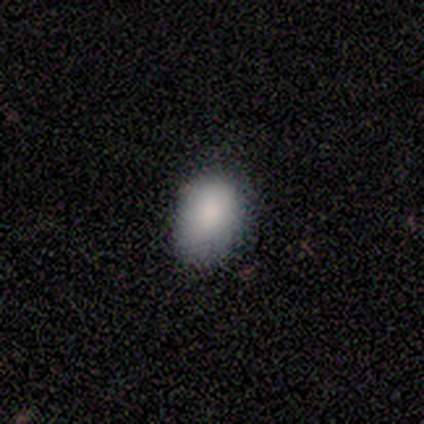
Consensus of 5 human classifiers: smooth_or_featured: smooth (p=0.80) [alt: star or artifact p=0.20]
how_rounded: in between (p=0.75) [alt: round p=0.25]
merging: none (p=0.75) [alt: major disturbance p=0.25]